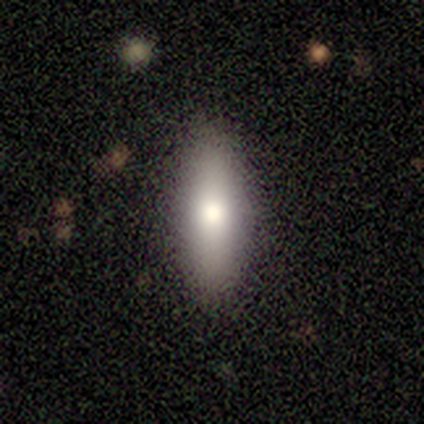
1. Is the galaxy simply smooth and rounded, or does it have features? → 60% smooth, 40% featured or disk, 0% star or artifact.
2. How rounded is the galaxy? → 67% in between, 33% cigar-shaped, 0% round.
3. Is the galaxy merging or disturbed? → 100% none, 0% minor disturbance, 0% major disturbance, 0% merger.